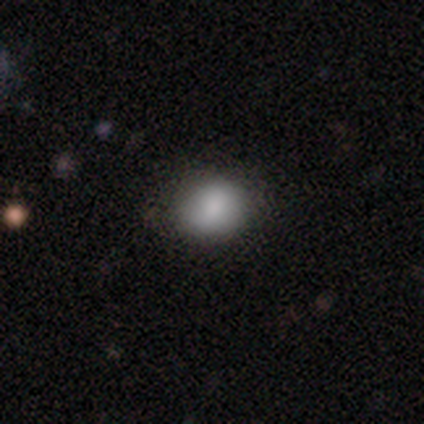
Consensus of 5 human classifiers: Overall: smooth (100%). How rounded: round (80%). Merging: none (40%, tied with minor disturbance).